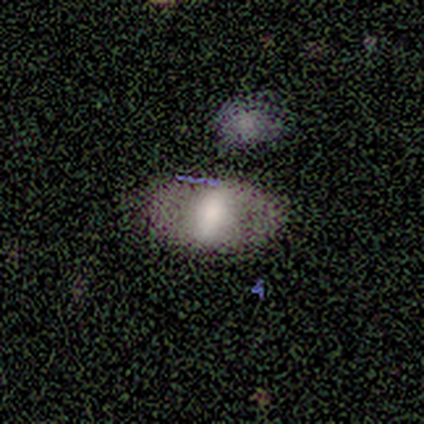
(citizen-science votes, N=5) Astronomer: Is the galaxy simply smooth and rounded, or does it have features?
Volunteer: smooth — 60% (runner-up: featured or disk, 40%).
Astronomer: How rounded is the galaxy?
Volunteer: in between — 100%.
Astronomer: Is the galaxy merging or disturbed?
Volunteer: none — 80%.